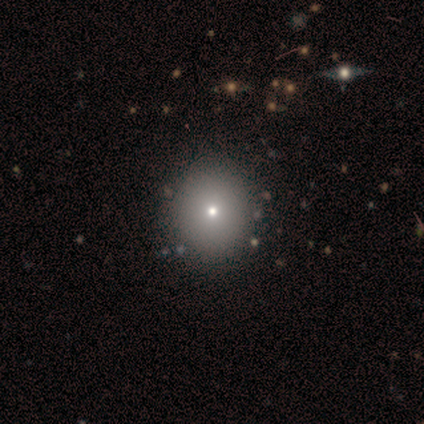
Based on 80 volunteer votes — Overall: smooth (81%). How rounded: round (94%). Merging: none (47%).